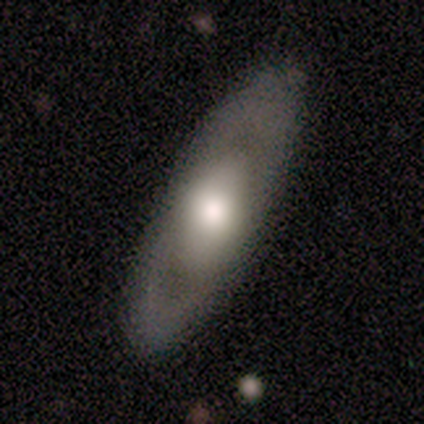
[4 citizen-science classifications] Smooth or featured?
  - smooth: 50% * (tied)
  - featured or disk: 50% * (tied)
  - star or artifact: 0%
How rounded?
  - in between: 100% *
  - round: 0%
  - cigar-shaped: 0%
Merging?
  - none: 75% *
  - minor disturbance: 25%
  - major disturbance: 0%
  - merger: 0%